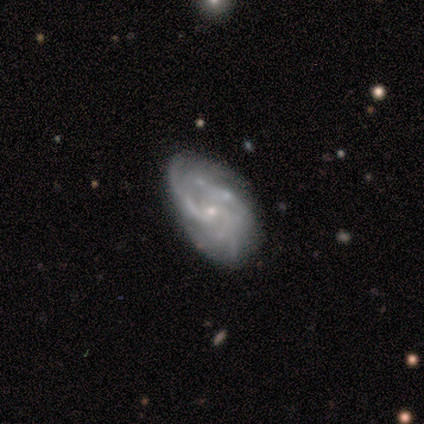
A featured or disk galaxy (100%) with no bar (100%), medium (67%) spiral arms (60%) and a small central bulge (60%). Merging: none (67%).